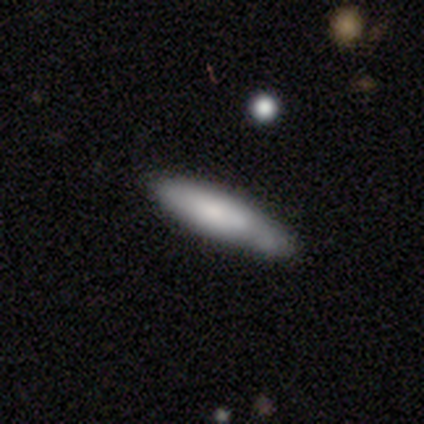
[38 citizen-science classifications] Q: Smooth or featured?
A: smooth (76%); runner-up: featured or disk (24%)
Q: How rounded?
A: cigar-shaped (97%); runner-up: in between (3%)
Q: Merging?
A: none (74%); runner-up: minor disturbance (21%)